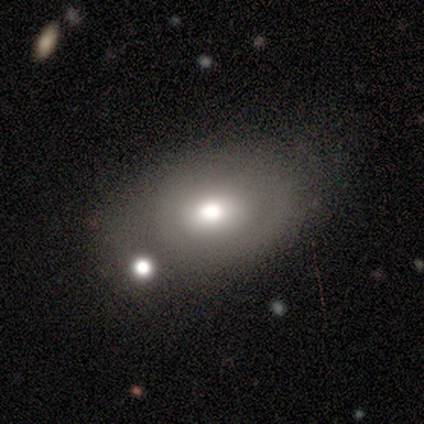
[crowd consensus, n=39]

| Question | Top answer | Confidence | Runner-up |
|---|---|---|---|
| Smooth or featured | smooth | 54% | featured or disk (41%) |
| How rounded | in between | 67% | round (33%) |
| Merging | none | 49% | merger (24%) |